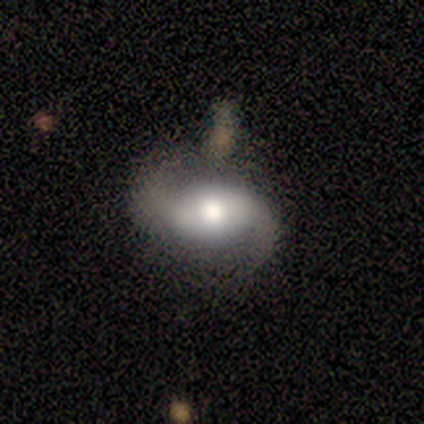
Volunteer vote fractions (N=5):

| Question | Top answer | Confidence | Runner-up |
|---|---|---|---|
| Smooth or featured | featured or disk | 100% | — |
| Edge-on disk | no | 100% | — |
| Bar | no | 60% | strong (20%) |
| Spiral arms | yes | 100% | — |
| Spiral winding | medium | 60% | loose (40%) |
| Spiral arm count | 2 | 100% | — |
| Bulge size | large | 40% | tied: moderate (40%) |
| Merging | none | 60% | minor disturbance (40%) |